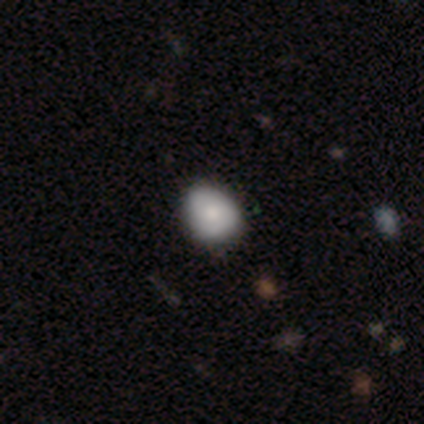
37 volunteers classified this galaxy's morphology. This appears to be a smooth galaxy with no disk features (73%) that is round (52%). Merging: none (61%).